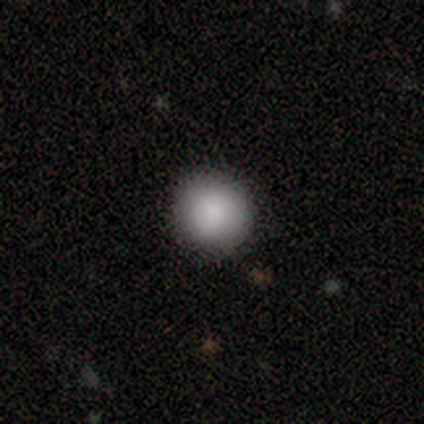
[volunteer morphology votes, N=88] type=smooth (78%); roundness=round (96%); merging=none (94%).